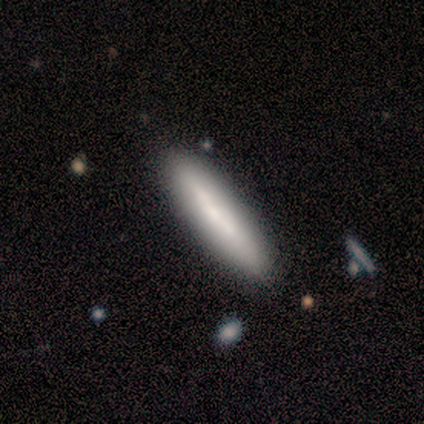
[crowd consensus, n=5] Smooth or featured? smooth (80%)
How rounded? cigar-shaped (75%)
Merging? none (80%)